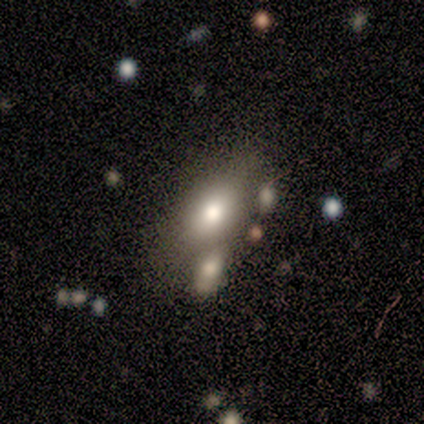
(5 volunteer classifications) smooth 40% (tied), featured or disk 40% (tied), star or artifact 20%. Down the decision tree: how rounded — in between (100%); merging — minor disturbance (50%, tied with merger).